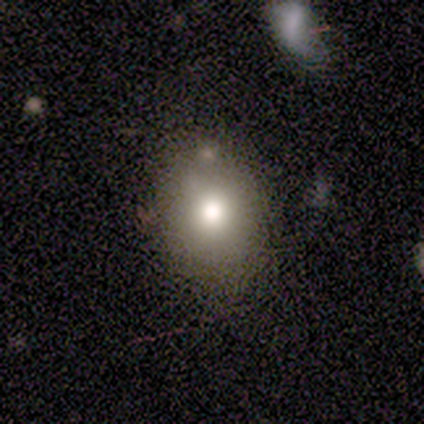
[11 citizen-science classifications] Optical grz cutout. It shows a smooth galaxy with no disk features (91%) that is round (60%). Merging: none (82%).